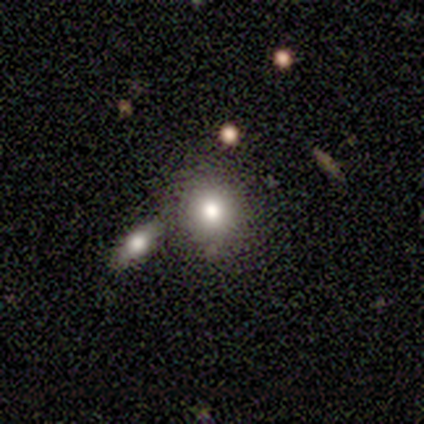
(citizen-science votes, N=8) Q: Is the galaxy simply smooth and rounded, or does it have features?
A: smooth — 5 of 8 (62%).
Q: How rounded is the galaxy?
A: round — 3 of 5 (60%).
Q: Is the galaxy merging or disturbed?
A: none — 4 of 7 (57%).